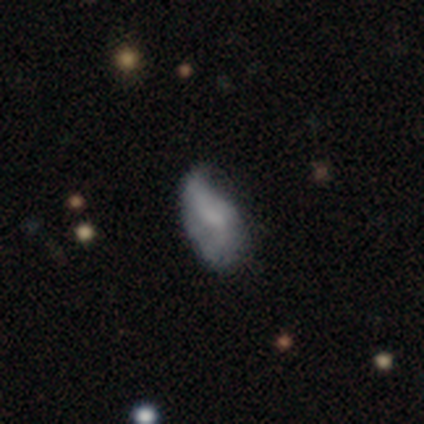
Volunteers were most divided on "smooth or featured" (2-way tie): smooth: 50%, featured or disk: 50%, star or artifact: 0%; "merging" (2-way tie): none: 50%, minor disturbance: 50%, major disturbance: 0%, merger: 0%. More confident: how rounded — in between (100%).